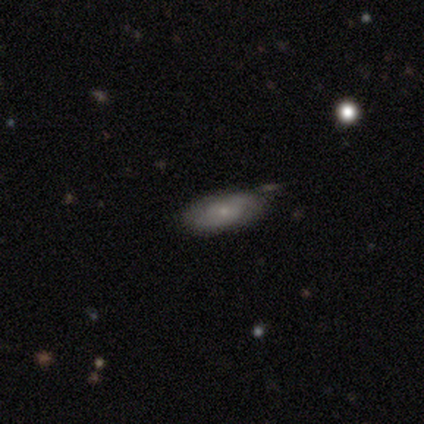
Smooth or featured? featured or disk (50%)
Edge-on disk? no (95%)
Bar? no (76%)
Spiral arms? yes (74%)
Spiral winding? tight (50%)
Spiral arm count? 2 (54%)
Bulge size? small (63%)
Merging? none (58%)